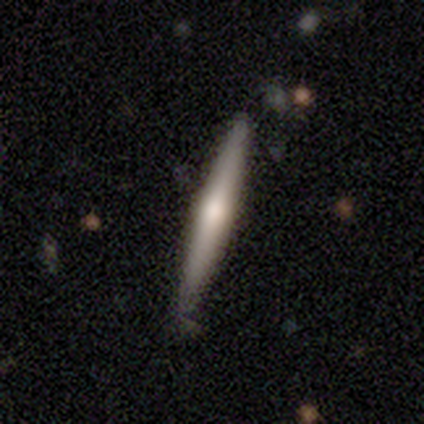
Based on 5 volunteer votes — smooth-or-featured: featured or disk: 60% | smooth: 40% | star or artifact: 0%
  disk-edge-on: yes: 100% | no: 0%
    edge-on-bulge: rounded: 67% | none: 33% | boxy: 0%
  merging: none: 80% | minor disturbance: 20% | major disturbance: 0% | merger: 0%